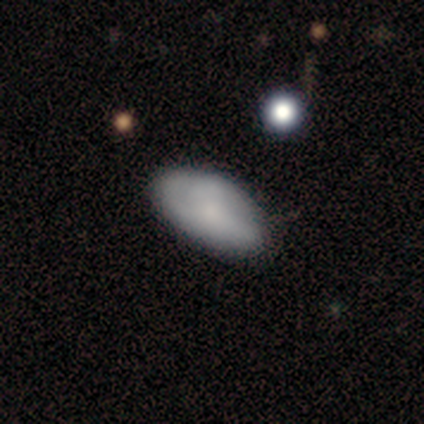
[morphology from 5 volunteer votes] This is likely a smooth galaxy (60%). How rounded: clearly in between (100%). Merging: possibly minor disturbance (50%).